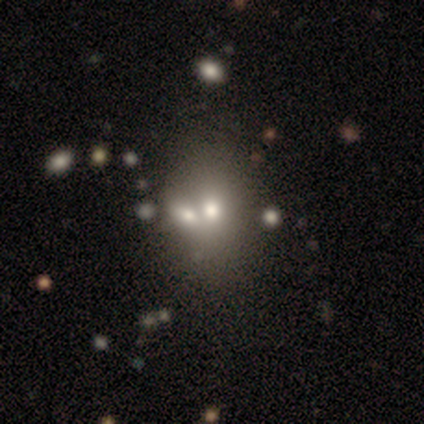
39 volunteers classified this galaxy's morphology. A smooth galaxy with no disk features (62%) that is in between round and cigar-shaped (75%).

Vote fractions:
- Smooth or featured? smooth: 62% / star or artifact: 21% / featured or disk: 18%
- How rounded? in between: 75% / round: 25% / cigar-shaped: 0%
- Merging? merger: 61% / none: 23% / minor disturbance: 3% / major disturbance: 3%